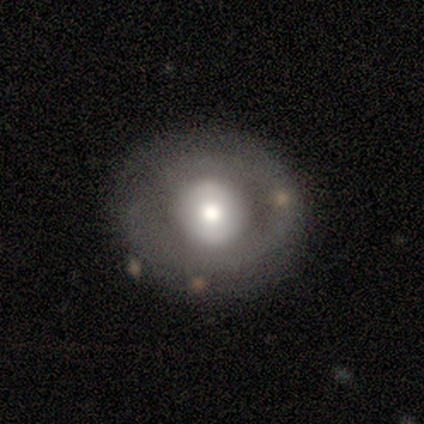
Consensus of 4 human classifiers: Smooth or featured? 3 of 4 (75%) said featured or disk. Edge-on disk? 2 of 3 (67%) said no. Bar? 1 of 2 (50%, tied with no) said weak. Spiral arms? 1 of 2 (50%, tied with no) said yes. Spiral winding? 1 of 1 (100%) said tight. Spiral arm count? 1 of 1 (100%) said 2. Bulge size? 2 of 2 (100%) said moderate. Merging? 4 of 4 (100%) said none.